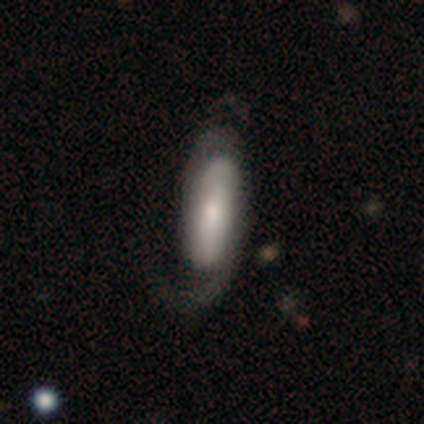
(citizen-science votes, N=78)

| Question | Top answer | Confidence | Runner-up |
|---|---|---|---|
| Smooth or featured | featured or disk | 64% | smooth (29%) |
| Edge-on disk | no | 94% | yes (6%) |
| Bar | no | 68% | weak (17%) |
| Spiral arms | yes | 91% | no (9%) |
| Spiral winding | loose | 40% | medium (37%) |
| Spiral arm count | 2 | 60% | 1 (19%) |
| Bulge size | small | 51% | moderate (26%) |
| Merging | none | 26% | major disturbance (16%) |